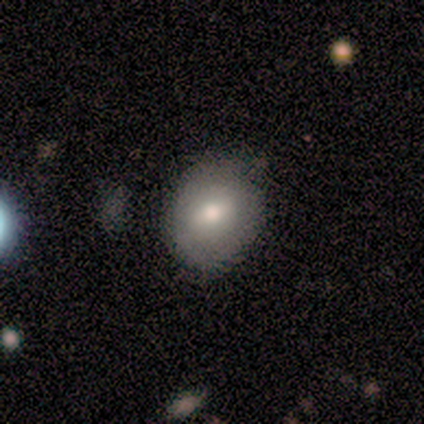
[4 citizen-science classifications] Volunteers were most divided on "how rounded": in between: 67%, round: 33%, cigar-shaped: 0%. More confident: merging — none (100%); smooth or featured — smooth (75%).